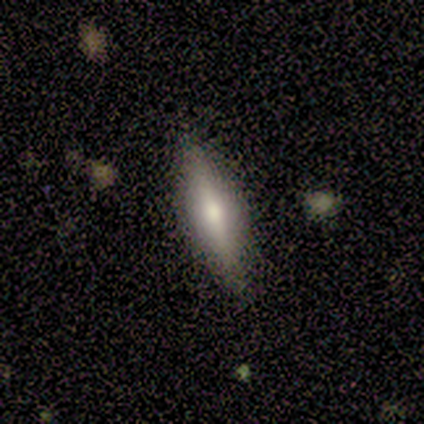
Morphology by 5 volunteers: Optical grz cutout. It shows a smooth galaxy with no disk features (40%, tied with featured or disk) that is cigar-shaped (100%). Merging: none (100%).